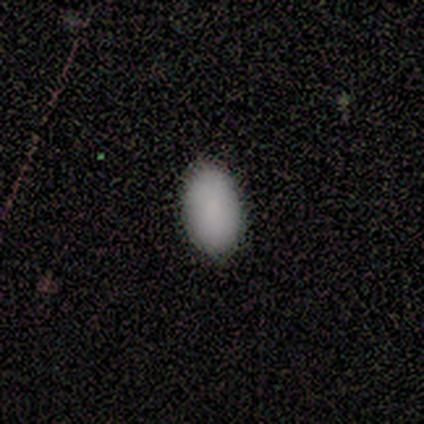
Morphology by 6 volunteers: Smooth or featured?
  - smooth: 67% *
  - featured or disk: 33%
  - star or artifact: 0%
How rounded?
  - in between: 75% *
  - round: 25%
  - cigar-shaped: 0%
Merging?
  - none: 100% *
  - minor disturbance: 0%
  - major disturbance: 0%
  - merger: 0%